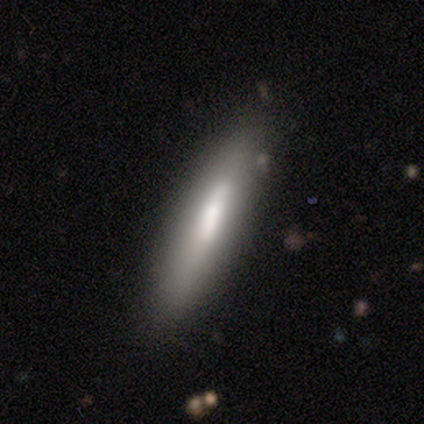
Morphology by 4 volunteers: This is likely a smooth galaxy (75%). How rounded: clearly cigar-shaped (100%). Merging: possibly none (50%, tied with minor disturbance).